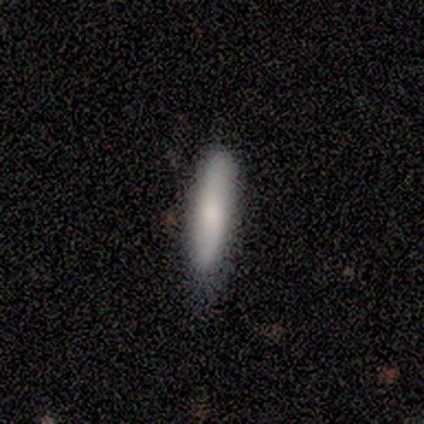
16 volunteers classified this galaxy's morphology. This appears to be a smooth galaxy with no disk features (81%) that is cigar-shaped (85%). Merging: none (69%).